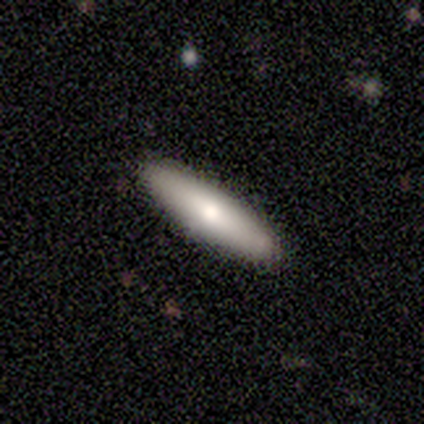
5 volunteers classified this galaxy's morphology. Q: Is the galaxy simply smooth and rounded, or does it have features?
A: featured or disk — 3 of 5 (60%).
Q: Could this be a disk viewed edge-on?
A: yes — 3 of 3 (100%).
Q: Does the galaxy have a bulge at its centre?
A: none — 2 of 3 (67%).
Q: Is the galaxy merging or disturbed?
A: none — 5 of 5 (100%).